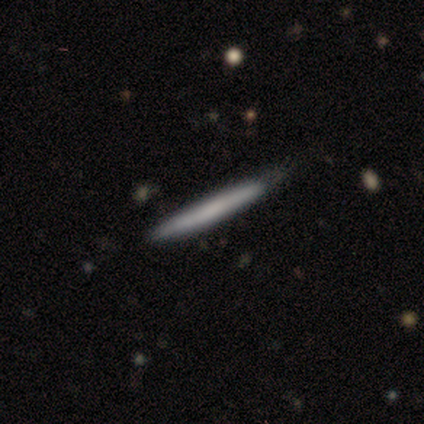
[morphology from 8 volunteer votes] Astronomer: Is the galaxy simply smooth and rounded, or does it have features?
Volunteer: smooth — 62%.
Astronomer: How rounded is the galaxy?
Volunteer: cigar-shaped — 100%.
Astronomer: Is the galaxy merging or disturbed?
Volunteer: none — 62%.